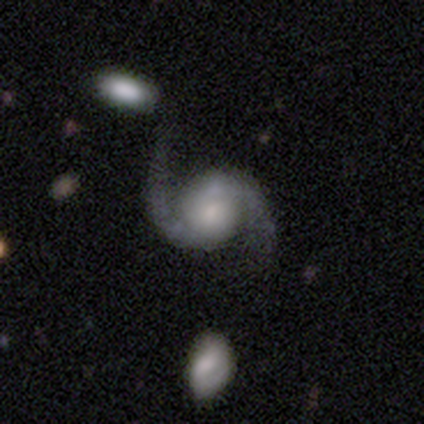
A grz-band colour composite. It shows a featured or disk galaxy (100%) with no bar (80%), 2 (100%) loose (80%) spiral arms (100%) and a moderate central bulge (60%). Merging: none (80%).